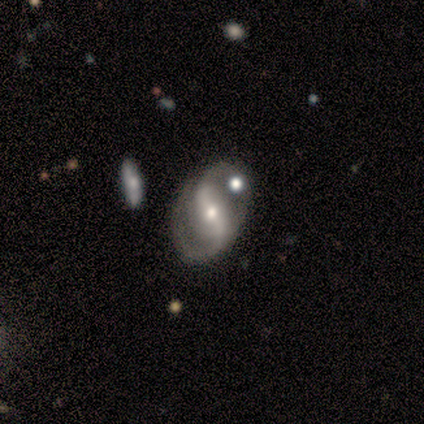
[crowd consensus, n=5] Smooth or featured?
  - featured or disk: 100% *
  - smooth: 0%
  - star or artifact: 0%
Edge-on disk?
  - no: 100% *
  - yes: 0%
Bar?
  - strong: 100% *
  - weak: 0%
  - no: 0%
Spiral arms?
  - yes: 100% *
  - no: 0%
Spiral winding?
  - tight: 60% *
  - medium: 20%
  - loose: 20%
Spiral arm count?
  - 2: 100% *
  - 1: 0%
  - 3: 0%
  - 4: 0%
  - more than 4: 0%
  - can't tell: 0%
Bulge size?
  - moderate: 40% * (tied)
  - small: 40% * (tied)
  - large: 20%
  - dominant: 0%
  - none: 0%
Merging?
  - none: 80% *
  - minor disturbance: 20%
  - major disturbance: 0%
  - merger: 0%